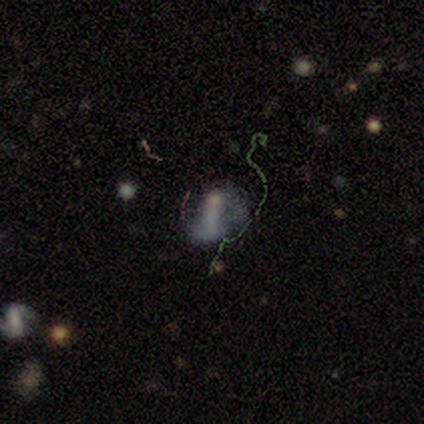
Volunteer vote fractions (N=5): smooth_or_featured: featured or disk (p=0.60) [alt: smooth p=0.40]
disk_edge_on: no (p=1.00)
bar: no (p=1.00)
has_spiral_arms: no (p=1.00)
bulge_size: none (p=0.67) [alt: moderate p=0.33]
merging: major disturbance (p=0.60) [alt: minor disturbance p=0.40]